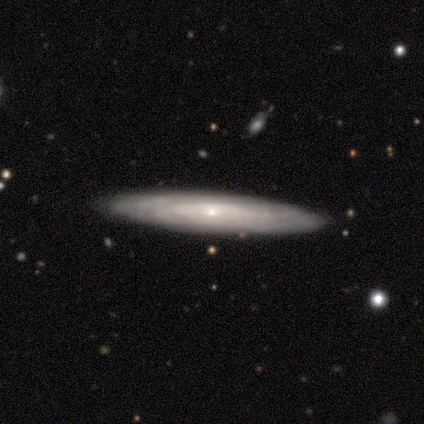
Smooth or featured: featured or disk — 86% (smooth — 14%)
Edge-on disk: yes — 92% (no — 8%)
Edge-on bulge: none — 64% (rounded — 27%)
Merging: none — 100%